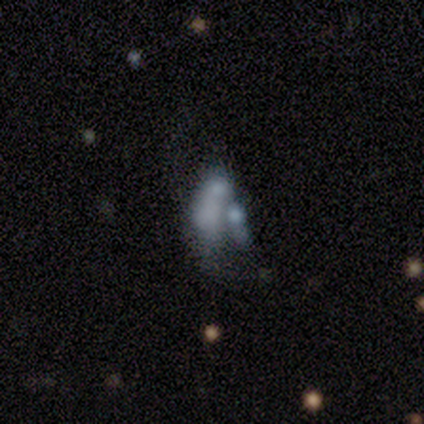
This appears to be a featured or disk galaxy (60%) with no bar (100%), no spiral arms (100%) and a moderate central bulge (33%, tied with small and none). Merging: major disturbance (50%, tied with merger).